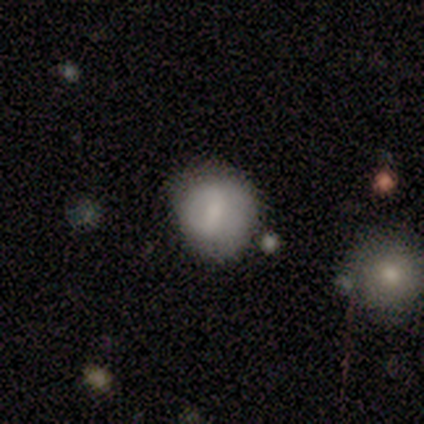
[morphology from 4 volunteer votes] Q: Smooth or featured?
A: smooth (100%)
Q: How rounded?
A: in between (75%); runner-up: round (25%)
Q: Merging?
A: minor disturbance (100%)